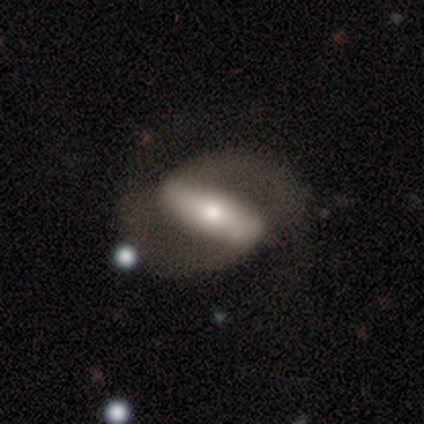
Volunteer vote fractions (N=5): A featured or disk galaxy (100%) with a strong bar (100%), 2 (100%) tight (50%, tied with loose) spiral arms (50%, tied with no) and a moderate central bulge (75%). Merging: none (60%).